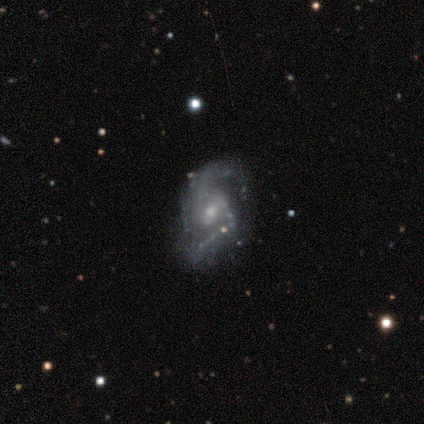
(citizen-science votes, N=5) Smooth or featured?
  - featured or disk: 80% *
  - star or artifact: 20%
  - smooth: 0%
Edge-on disk?
  - no: 100% *
  - yes: 0%
Bar?
  - weak: 75% *
  - no: 25%
  - strong: 0%
Spiral arms?
  - yes: 75% *
  - no: 25%
Spiral winding?
  - medium: 67% *
  - loose: 33%
  - tight: 0%
Spiral arm count?
  - 2: 100% *
  - 1: 0%
  - 3: 0%
  - 4: 0%
  - more than 4: 0%
  - can't tell: 0%
Bulge size?
  - moderate: 50% * (tied)
  - small: 50% * (tied)
  - dominant: 0%
  - large: 0%
  - none: 0%
Merging?
  - none: 50% *
  - minor disturbance: 25%
  - major disturbance: 25%
  - merger: 0%